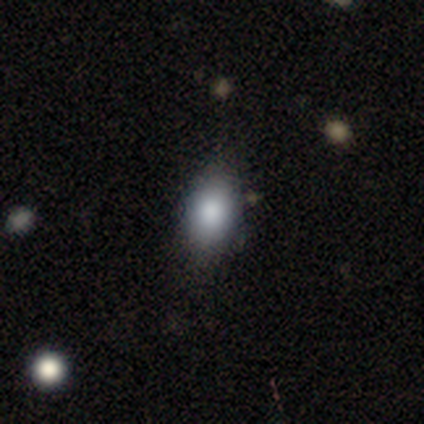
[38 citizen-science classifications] Smooth or featured? smooth (76%)
How rounded? in between (90%)
Merging? none (70%)